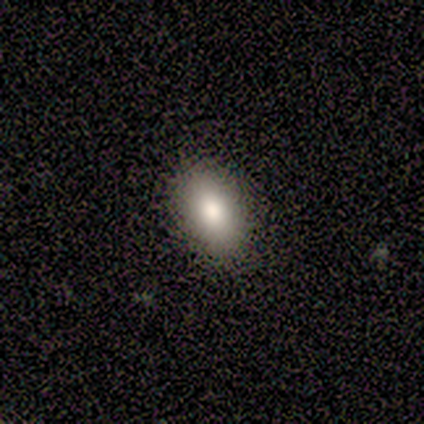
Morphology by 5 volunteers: A smooth galaxy with no disk features (60%) that is in between round and cigar-shaped (100%).

Vote fractions:
- Smooth or featured? smooth: 60% / star or artifact: 40% / featured or disk: 0%
- How rounded? in between: 100% / round: 0% / cigar-shaped: 0%
- Merging? none: 100% / minor disturbance: 0% / major disturbance: 0% / merger: 0%